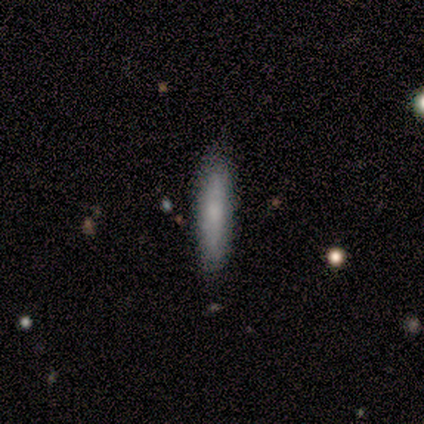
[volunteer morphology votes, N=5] smooth_or_featured: smooth (p=0.60) [alt: featured or disk p=0.40]
how_rounded: cigar-shaped (p=1.00)
merging: none (p=0.80) [alt: minor disturbance p=0.20]